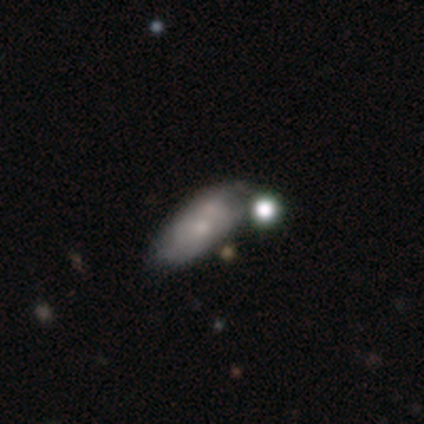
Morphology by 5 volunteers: Overall: featured or disk (60%; smooth 40%). Edge-on disk: no (100%). Bar: no (100%). Spiral arms: no (100%). Bulge size: moderate (33%, tied with small and none). Merging: none (40%, tied with minor disturbance).